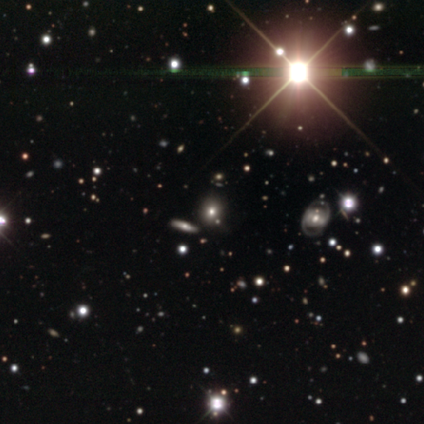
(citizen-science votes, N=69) smooth-or-featured: smooth: 42% (tied) | star or artifact: 42% (tied) | featured or disk: 16%
  how-rounded: in between: 59% | round: 41% | cigar-shaped: 0%
  merging: none: 82% | minor disturbance: 10% | merger: 8% | major disturbance: 0%